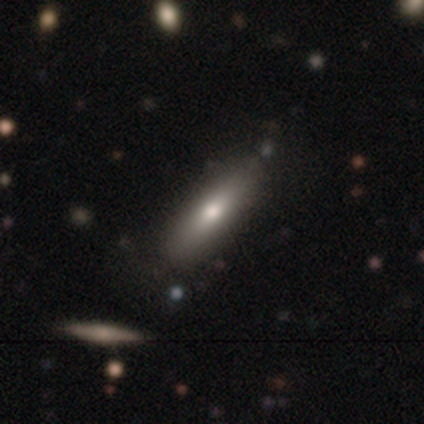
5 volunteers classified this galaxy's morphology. This appears to be a smooth galaxy with no disk features (60%) that is cigar-shaped (100%). Merging: none (100%).